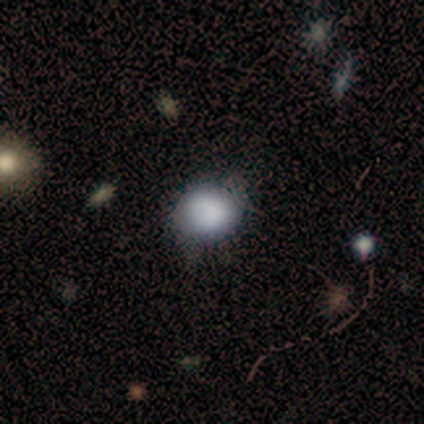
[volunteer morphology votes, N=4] This is likely a smooth galaxy (75%). How rounded: likely round (67%). Merging: likely none (67%).